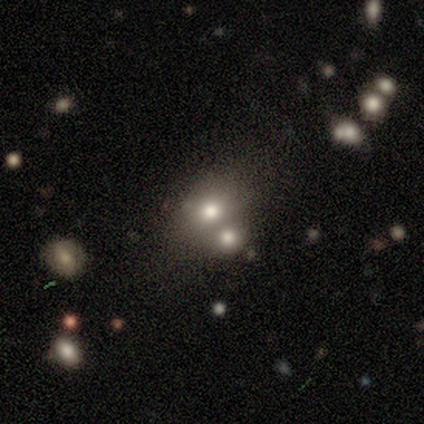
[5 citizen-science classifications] Smooth or featured? 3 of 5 (60%) said star or artifact.